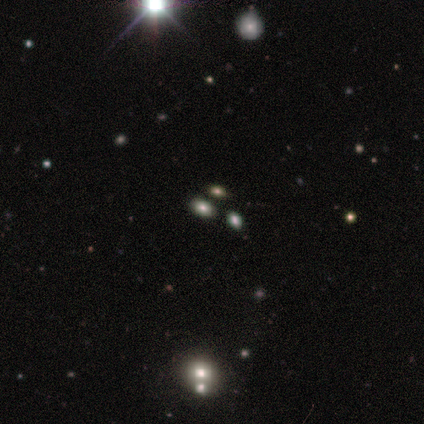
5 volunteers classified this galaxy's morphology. Smooth or featured? 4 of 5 (80%) said smooth. How rounded? 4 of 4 (100%) said in between. Merging? 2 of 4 (50%) said none.